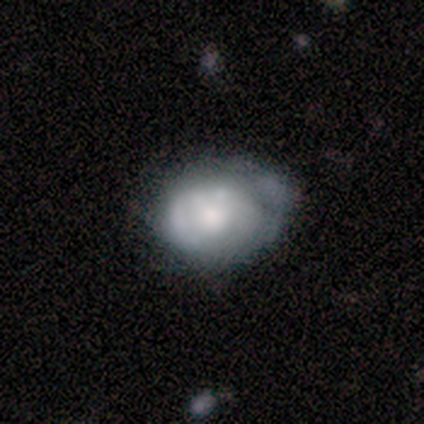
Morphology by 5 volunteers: This is likely a smooth galaxy (60%). How rounded: clearly round (100%). Merging: likely none (60%).